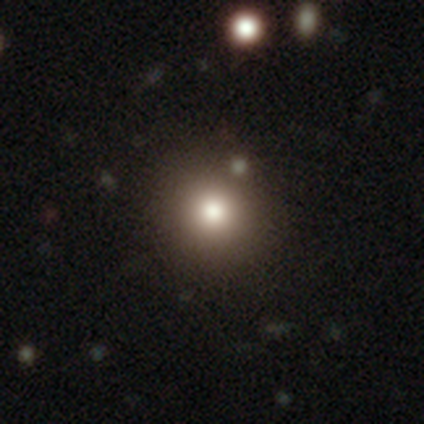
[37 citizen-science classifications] This is likely a smooth galaxy (68%). How rounded: clearly round (96%). Merging: clearly none (88%).